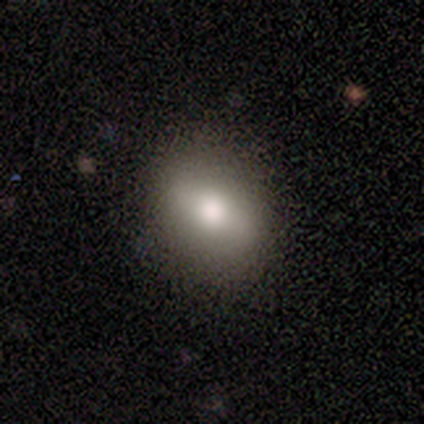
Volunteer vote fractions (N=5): Q: Smooth or featured?
A: smooth (60%); runner-up: featured or disk (40%)
Q: How rounded?
A: in between (100%)
Q: Merging?
A: none (100%)